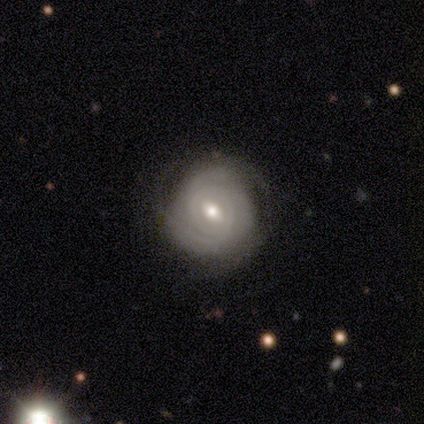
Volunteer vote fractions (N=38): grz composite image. It shows a featured or disk galaxy (84%) with a weak bar (68%), tight (90%) spiral arms (100%) and a moderate central bulge (74%). Merging: none (69%).